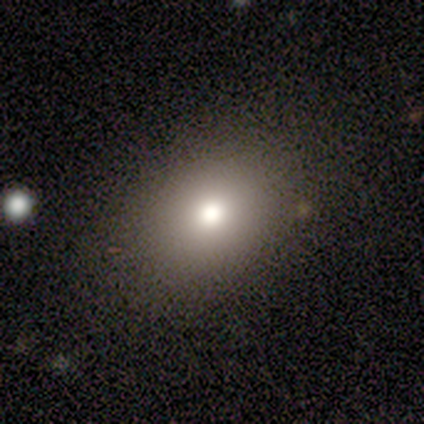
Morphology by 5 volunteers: Smooth or featured? 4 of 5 (80%) said smooth. How rounded? 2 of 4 (50%, tied with in between) said round. Merging? 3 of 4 (75%) said none.